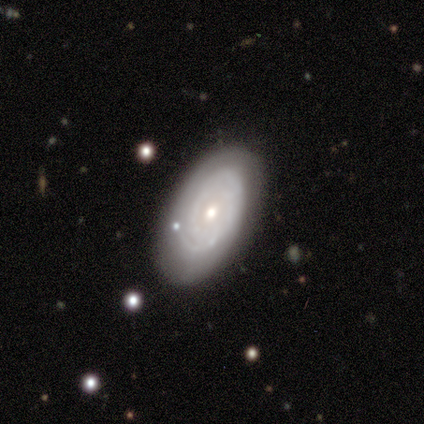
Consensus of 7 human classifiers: smooth_or_featured: featured or disk (p=0.86) [alt: star or artifact p=0.14]
disk_edge_on: no (p=0.83) [alt: yes p=0.17]
bar: no (p=1.00)
has_spiral_arms: yes (p=0.80) [alt: no p=0.20]
spiral_winding: tight (p=0.75) [alt: medium p=0.25]
spiral_arm_count: 2 (p=0.50) [alt: 1 p=0.25]
bulge_size: moderate (p=0.80) [alt: small p=0.20]
merging: none (p=0.50) [alt: minor disturbance p=0.33]